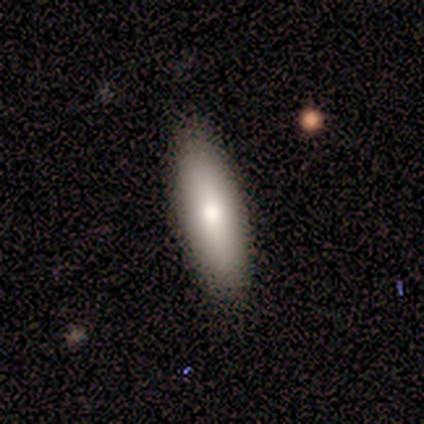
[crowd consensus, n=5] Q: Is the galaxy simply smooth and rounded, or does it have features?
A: smooth — 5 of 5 (100%).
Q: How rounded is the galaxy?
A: in between — 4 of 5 (80%).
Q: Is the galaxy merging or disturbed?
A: none — 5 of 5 (100%).